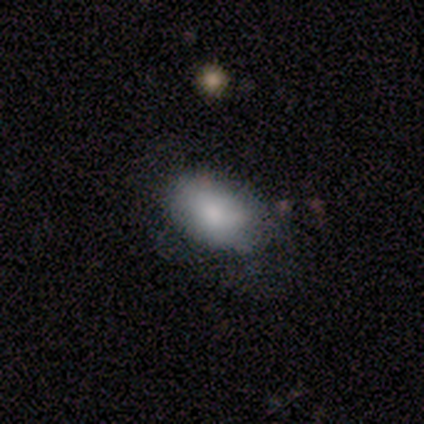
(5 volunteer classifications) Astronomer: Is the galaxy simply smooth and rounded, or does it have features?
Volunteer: smooth — 60% (runner-up: star or artifact, 40%).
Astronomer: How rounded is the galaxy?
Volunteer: in between — 100%.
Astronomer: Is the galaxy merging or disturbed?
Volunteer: none — 67%.